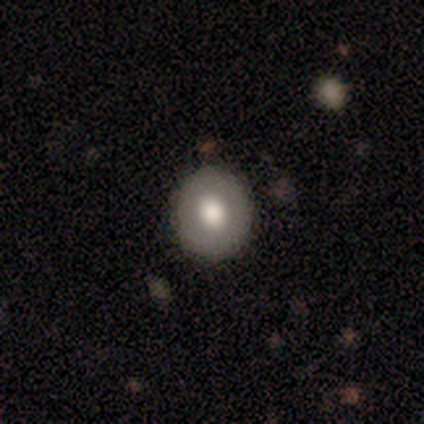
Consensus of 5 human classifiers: smooth_or_featured: smooth (p=0.60) [alt: featured or disk p=0.20]
how_rounded: round (p=1.00)
merging: none (p=1.00)